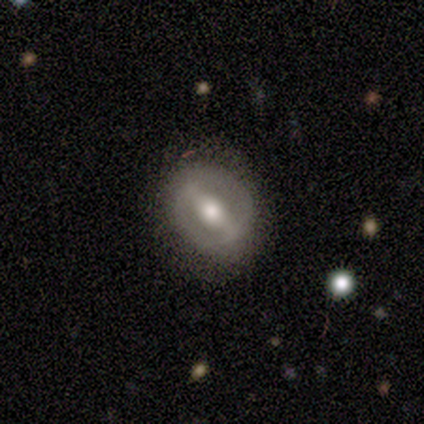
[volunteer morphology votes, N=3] This is likely a smooth galaxy (67%). How rounded: possibly round (50%, tied with in between). Merging: likely none (67%).